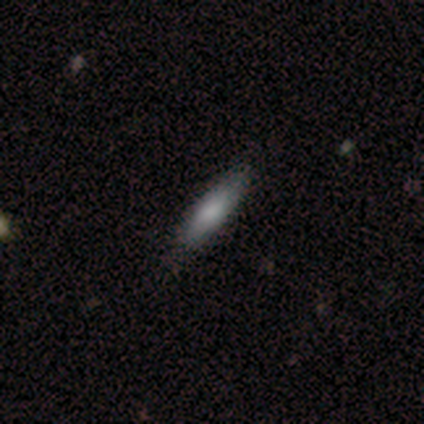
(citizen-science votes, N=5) smooth 80%, star or artifact 20%, featured or disk 0%. Down the decision tree: how rounded — in between (50%, tied with cigar-shaped); merging — none (100%).